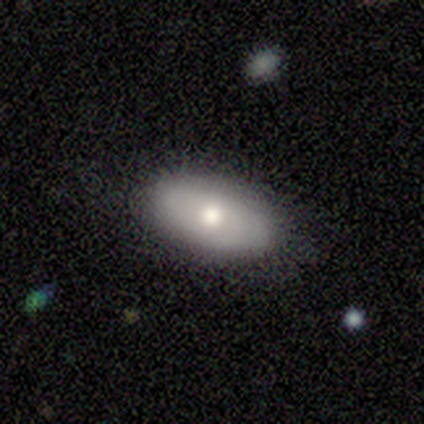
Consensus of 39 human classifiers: Smooth or featured?
  - smooth: 59% *
  - featured or disk: 36%
  - star or artifact: 5%
How rounded?
  - in between: 96% *
  - round: 4%
  - cigar-shaped: 0%
Merging?
  - none: 84% *
  - minor disturbance: 8%
  - major disturbance: 5%
  - merger: 3%